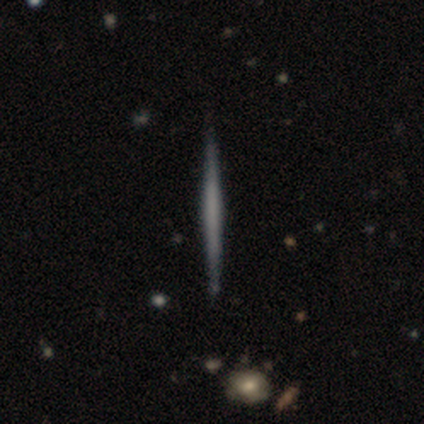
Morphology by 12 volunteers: featured or disk 67%, smooth 33%, star or artifact 0%. Down the decision tree: edge-on disk — yes (100%); edge-on bulge — none (75%); merging — none (83%).